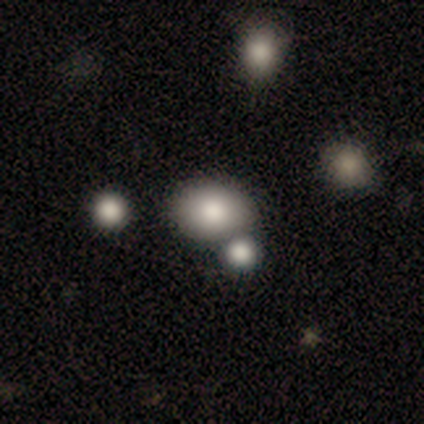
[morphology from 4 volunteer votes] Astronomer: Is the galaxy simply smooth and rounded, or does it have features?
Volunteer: smooth — 75%.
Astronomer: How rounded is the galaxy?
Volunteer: in between — 100%.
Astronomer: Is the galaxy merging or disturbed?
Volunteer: none — 67%.